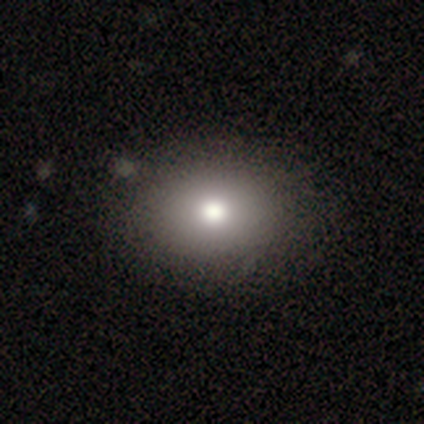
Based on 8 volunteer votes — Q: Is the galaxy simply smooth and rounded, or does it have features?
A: smooth — 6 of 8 (75%).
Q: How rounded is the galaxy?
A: round — 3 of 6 (50%, tied with in between).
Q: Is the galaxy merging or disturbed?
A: none — 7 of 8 (88%).